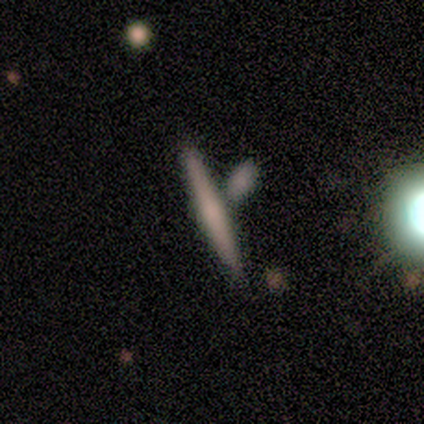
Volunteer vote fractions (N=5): smooth-or-featured: smooth: 60% | featured or disk: 40% | star or artifact: 0%
  how-rounded: cigar-shaped: 100% | round: 0% | in between: 0%
  merging: none: 60% | merger: 40% | minor disturbance: 0% | major disturbance: 0%